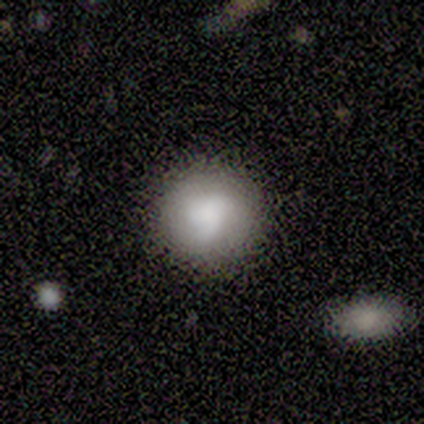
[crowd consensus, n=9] smooth-or-featured: smooth: 78% | featured or disk: 22% | star or artifact: 0%
  how-rounded: round: 100% | in between: 0% | cigar-shaped: 0%
  merging: none: 89% | minor disturbance: 11% | major disturbance: 0% | merger: 0%